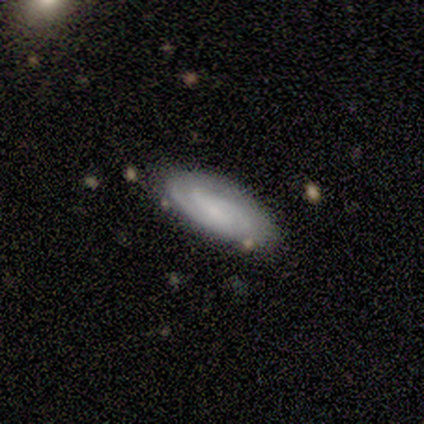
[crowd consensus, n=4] Smooth or featured? featured or disk (75%)
Edge-on disk? no (67%)
Bar? weak (50%, tied with no)
Spiral arms? yes (100%)
Spiral winding? tight (100%)
Spiral arm count? 2 (50%, tied with can't tell)
Bulge size? small (50%, tied with none)
Merging? none (75%)